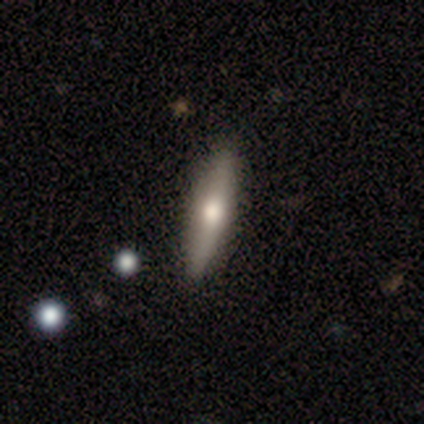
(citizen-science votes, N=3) smooth-or-featured: smooth: 67% | featured or disk: 33% | star or artifact: 0%
  how-rounded: in between: 50% (tied) | cigar-shaped: 50% (tied) | round: 0%
  merging: none: 100% | minor disturbance: 0% | major disturbance: 0% | merger: 0%